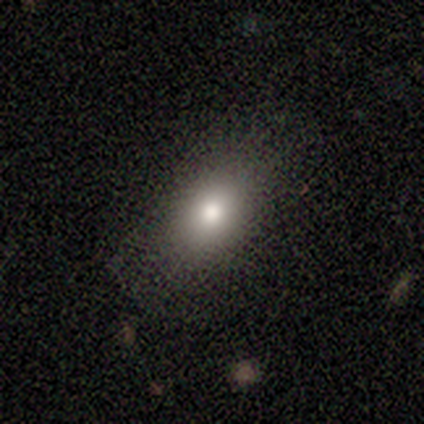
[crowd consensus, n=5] This appears to be a smooth galaxy with no disk features (60%) that is in between round and cigar-shaped (67%). Merging: none (67%).